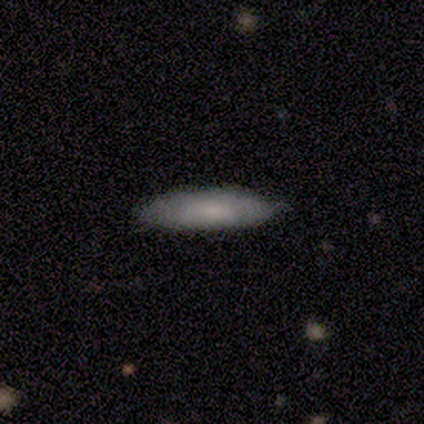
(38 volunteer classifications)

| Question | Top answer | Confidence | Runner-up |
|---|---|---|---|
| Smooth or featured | smooth | 71% | featured or disk (16%) |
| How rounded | cigar-shaped | 74% | in between (26%) |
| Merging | none | 88% | minor disturbance (9%) |